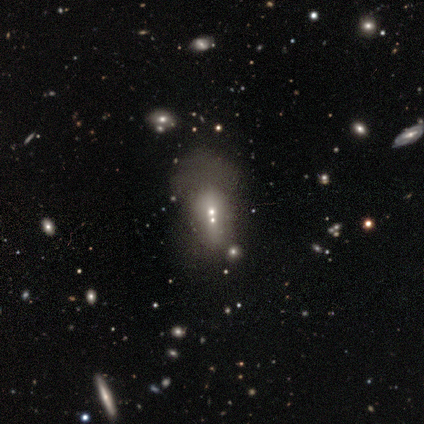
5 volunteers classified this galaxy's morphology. Volunteers were most divided on "smooth or featured": star or artifact: 60%, smooth: 20%, featured or disk: 20%.